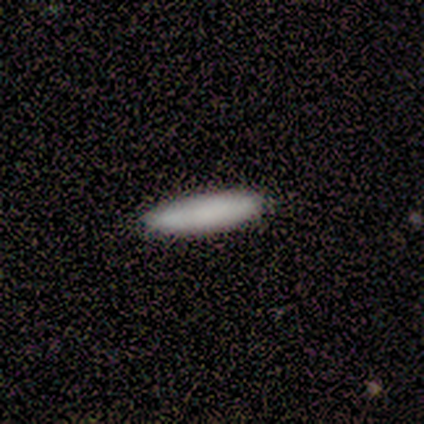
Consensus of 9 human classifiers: smooth 89%, featured or disk 11%, star or artifact 0%. Down the decision tree: how rounded — in between (50%, tied with cigar-shaped); merging — none (100%).